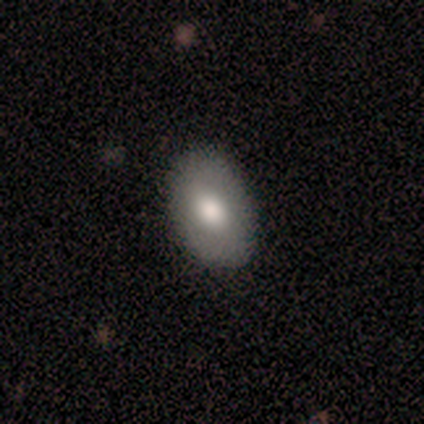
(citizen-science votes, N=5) Volunteers were most divided on "how rounded": in between: 75%, round: 25%, cigar-shaped: 0%. More confident: merging — none (100%); smooth or featured — smooth (80%).